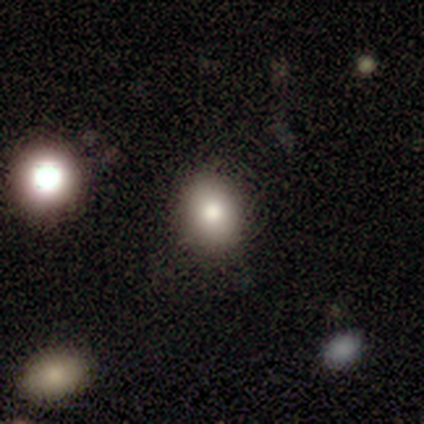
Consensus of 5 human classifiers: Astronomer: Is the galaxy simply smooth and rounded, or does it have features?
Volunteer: smooth — 80%.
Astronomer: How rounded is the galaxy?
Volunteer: in between — 75%.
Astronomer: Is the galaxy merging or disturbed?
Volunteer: none — 100%.